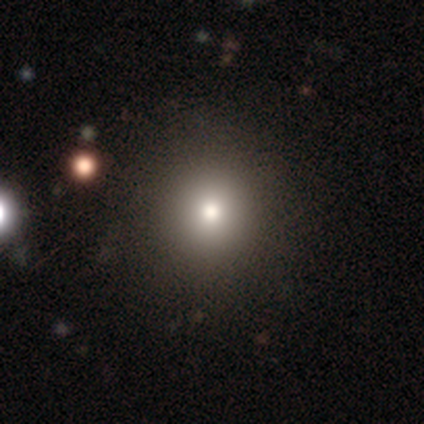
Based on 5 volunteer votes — Overall: smooth (60%; featured or disk 40%). How rounded: round (100%). Merging: none (100%).